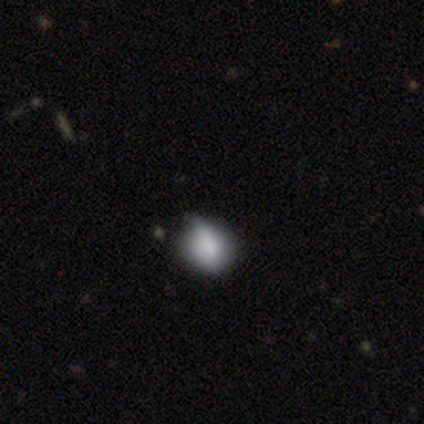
Q: Smooth or featured?
A: smooth (60%); runner-up: featured or disk (20%)
Q: How rounded?
A: in between (67%); runner-up: round (33%)
Q: Merging?
A: minor disturbance (75%); runner-up: none (25%)